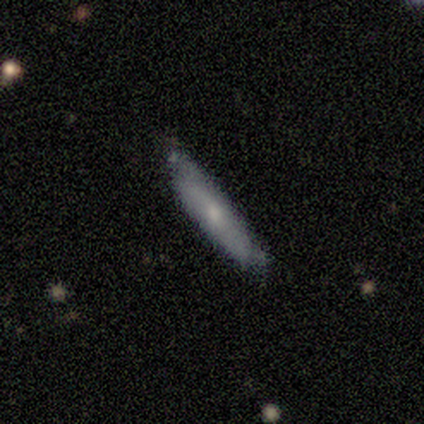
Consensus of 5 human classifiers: Smooth or featured?
  - featured or disk: 60% *
  - smooth: 20%
  - star or artifact: 20%
Edge-on disk?
  - no: 67% *
  - yes: 33%
Bar?
  - no: 100% *
  - strong: 0%
  - weak: 0%
Spiral arms?
  - yes: 50% * (tied)
  - no: 50% * (tied)
Spiral winding?
  - tight: 100% *
  - medium: 0%
  - loose: 0%
Spiral arm count?
  - can't tell: 100% *
  - 1: 0%
  - 2: 0%
  - 3: 0%
  - 4: 0%
  - more than 4: 0%
Bulge size?
  - moderate: 100% *
  - dominant: 0%
  - large: 0%
  - small: 0%
  - none: 0%
Merging?
  - none: 50% * (tied)
  - minor disturbance: 50% * (tied)
  - major disturbance: 0%
  - merger: 0%